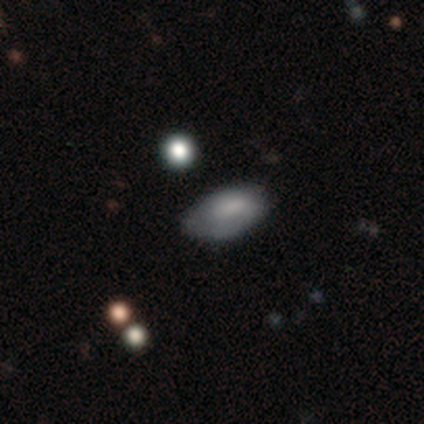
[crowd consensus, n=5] A smooth galaxy with no disk features (100%) that is in between round and cigar-shaped (100%).

Vote fractions:
- Smooth or featured? smooth: 100% / featured or disk: 0% / star or artifact: 0%
- How rounded? in between: 100% / round: 0% / cigar-shaped: 0%
- Merging? minor disturbance: 60% / none: 40% / major disturbance: 0% / merger: 0%